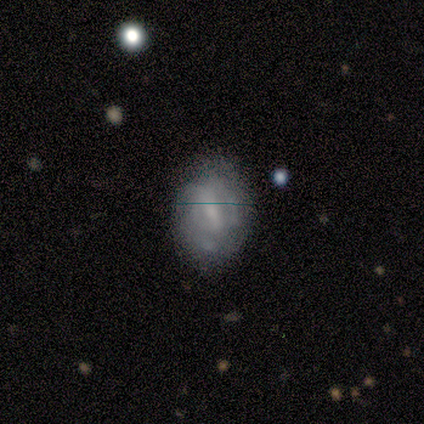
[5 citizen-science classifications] A featured or disk galaxy (80%) with a weak bar (50%, tied with no), 3 (50%, tied with can't tell) tight (50%, tied with medium) spiral arms (50%, tied with no) and a small central bulge (50%, tied with none). Merging: none (40%, tied with minor disturbance).